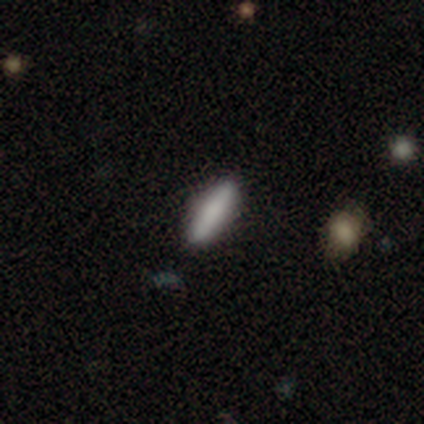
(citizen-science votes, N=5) Smooth or featured?
  - smooth: 100% *
  - featured or disk: 0%
  - star or artifact: 0%
How rounded?
  - in between: 60% *
  - cigar-shaped: 40%
  - round: 0%
Merging?
  - none: 100% *
  - minor disturbance: 0%
  - major disturbance: 0%
  - merger: 0%